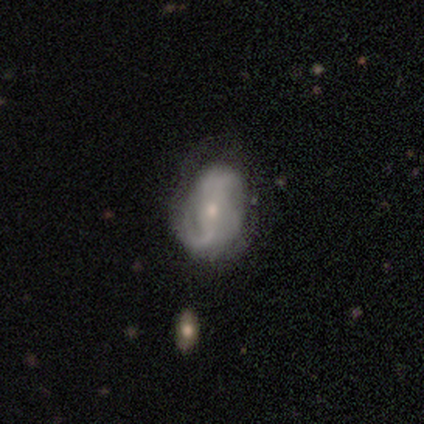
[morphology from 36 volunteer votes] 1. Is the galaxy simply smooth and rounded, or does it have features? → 86% featured or disk, 14% smooth, 0% star or artifact.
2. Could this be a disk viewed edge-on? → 97% no, 3% yes.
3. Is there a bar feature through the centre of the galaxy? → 50% weak, 30% no, 20% strong.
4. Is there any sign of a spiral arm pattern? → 100% yes, 0% no.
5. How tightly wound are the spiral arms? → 47% loose, 37% medium, 17% tight.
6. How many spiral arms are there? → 73% 2, 10% 1, 10% can't tell, 7% 3, 0% 4, 0% more than 4.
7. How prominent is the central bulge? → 50% small, 43% moderate, 3% dominant, 3% none, 0% large.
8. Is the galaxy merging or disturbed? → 36% none, 17% minor disturbance, 17% major disturbance, 6% merger.